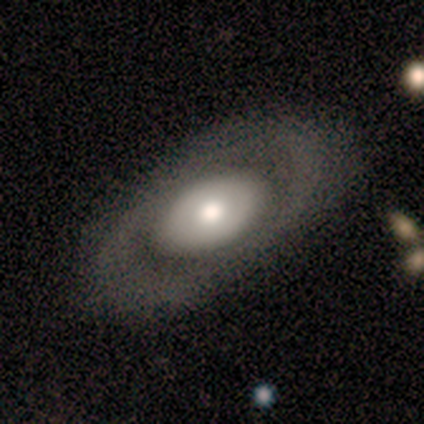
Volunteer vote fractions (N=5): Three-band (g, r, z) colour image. It shows a featured or disk galaxy (80%) with no bar (100%), no spiral arms (100%) and a moderate central bulge (75%). Merging: none (100%).